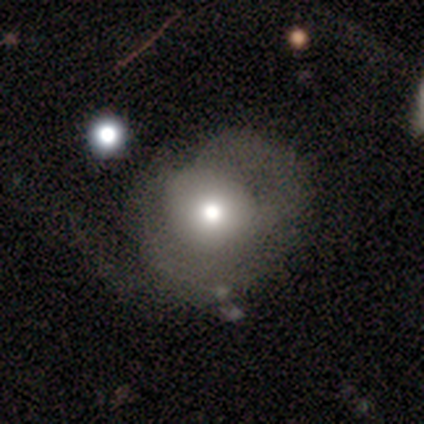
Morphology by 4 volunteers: A featured or disk galaxy (50%) with no bar (100%), no spiral arms (100%) and a moderate central bulge (100%).

Vote fractions:
- Smooth or featured? featured or disk: 50% / smooth: 25% / star or artifact: 25%
- Edge-on disk? no: 100% / yes: 0%
- Bar? no: 100% / strong: 0% / weak: 0%
- Spiral arms? no: 100% / yes: 0%
- Bulge size? moderate: 100% / dominant: 0% / large: 0% / small: 0% / none: 0%
- Merging? major disturbance: 67% / none: 33% / minor disturbance: 0% / merger: 0%